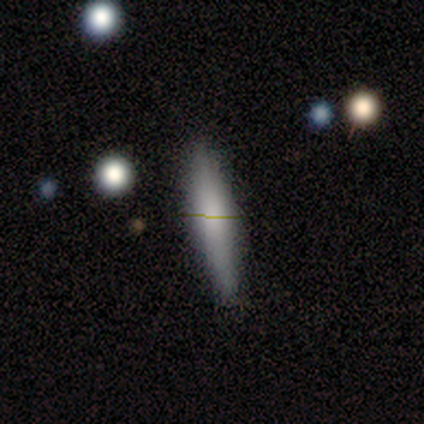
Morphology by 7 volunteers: type=smooth (86%); roundness=cigar-shaped (100%); merging=none (86%).